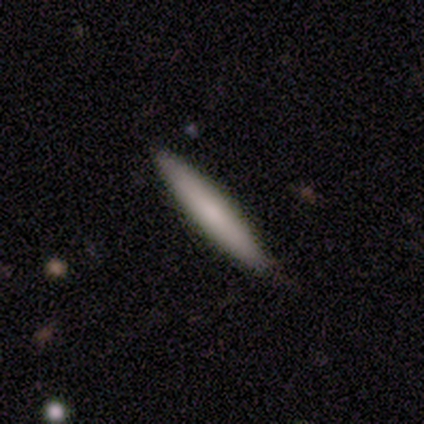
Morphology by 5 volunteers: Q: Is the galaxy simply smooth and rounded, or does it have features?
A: smooth — 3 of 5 (60%).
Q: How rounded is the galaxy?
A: cigar-shaped — 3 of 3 (100%).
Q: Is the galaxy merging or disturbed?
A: none — 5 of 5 (100%).